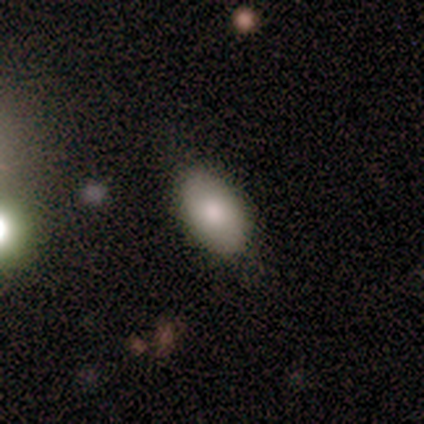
smooth_or_featured: smooth (p=1.00)
how_rounded: in between (p=1.00)
merging: none (p=0.80) [alt: minor disturbance p=0.20]